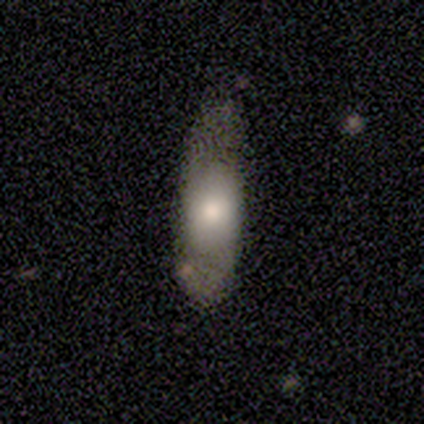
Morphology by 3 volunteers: type=smooth (100%); roundness=in between (67%); merging=none (100%).